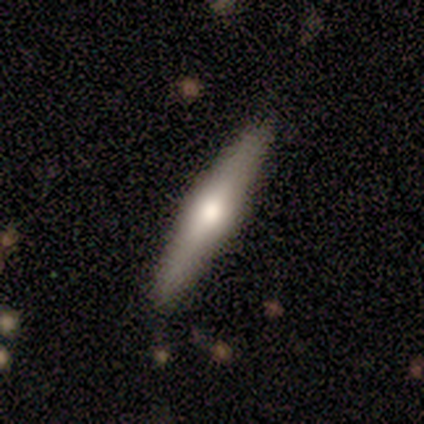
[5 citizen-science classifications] Overall: featured or disk (60%; smooth 20%). Edge-on disk: yes (67%; no 33%). Edge-on bulge: none (50%, tied with rounded). Merging: none (100%).